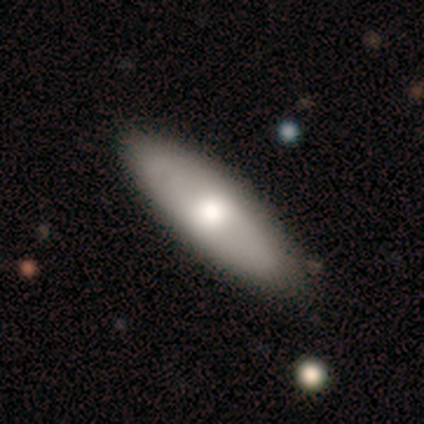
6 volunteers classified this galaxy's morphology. smooth 67%, featured or disk 33%, star or artifact 0%. Down the decision tree: how rounded — in between (50%, tied with cigar-shaped); merging — none (83%).